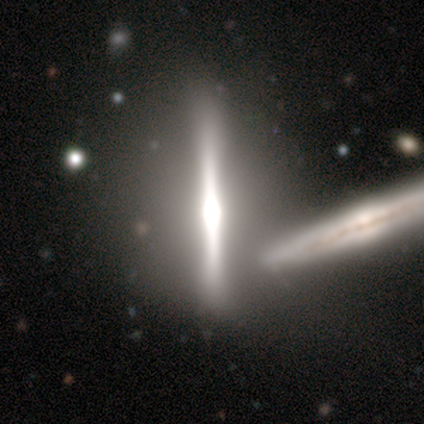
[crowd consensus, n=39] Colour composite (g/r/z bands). It shows a featured or disk galaxy (87%) viewed edge-on (88%) with a rounded central bulge (57%). Merging: none (38%).